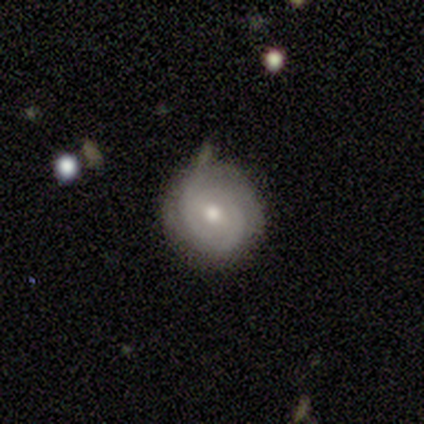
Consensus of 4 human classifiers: Overall: featured or disk (75%). Edge-on disk: no (100%). Bar: no (67%; weak 33%). Spiral arms: yes (100%). Spiral arm count: can't tell (67%; 3 33%). Spiral winding: tight (67%; loose 33%). Bulge size: moderate (100%). Merging: minor disturbance (50%; none 25%).